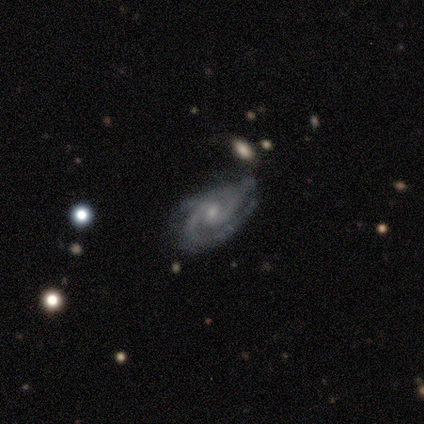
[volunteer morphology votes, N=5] Smooth or featured: featured or disk — 100%
Edge-on disk: no — 100%
Bar: weak — 60% (no — 40%)
Spiral arms: yes — 100%
Spiral winding: tight — 100%
Spiral arm count: 2 — 80% (3 — 20%)
Bulge size: small — 100%
Merging: none — 80% (minor disturbance — 20%)